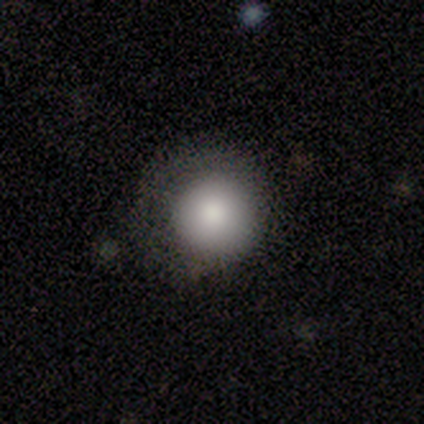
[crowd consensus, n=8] smooth-or-featured: smooth: 62% | star or artifact: 25% | featured or disk: 12%
  how-rounded: round: 100% | in between: 0% | cigar-shaped: 0%
  merging: none: 50% | minor disturbance: 33% | major disturbance: 17% | merger: 0%